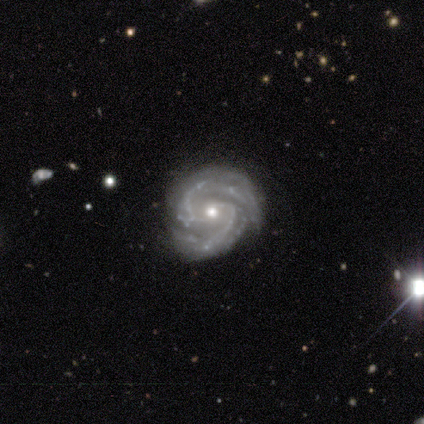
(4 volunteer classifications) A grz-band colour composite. It shows a featured or disk galaxy (100%) with no bar (50%), 2 (100%) medium (75%) spiral arms (100%) and a small central bulge (50%). Merging: none (75%).